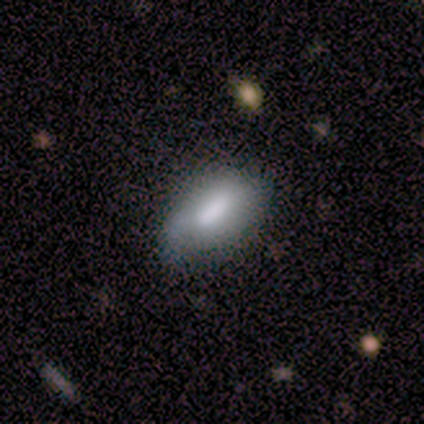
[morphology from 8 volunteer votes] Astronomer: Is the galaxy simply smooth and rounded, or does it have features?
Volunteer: smooth — 62%.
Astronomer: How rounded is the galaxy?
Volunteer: in between — 100%.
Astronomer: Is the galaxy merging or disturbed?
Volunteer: minor disturbance — 71%.